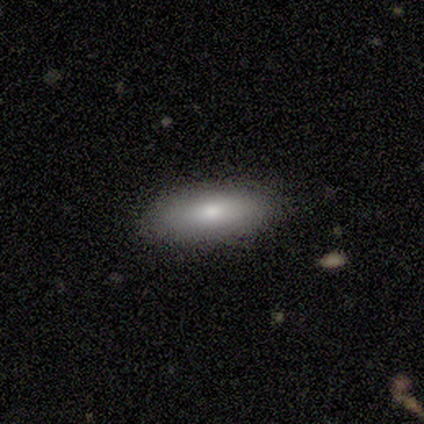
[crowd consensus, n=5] Volunteers were most divided on "smooth or featured": smooth: 60%, featured or disk: 40%, star or artifact: 0%. More confident: how rounded — in between (67%); merging — none (60%).